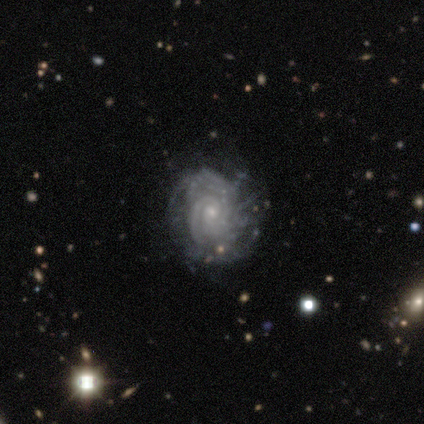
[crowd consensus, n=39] smooth_or_featured: featured or disk (p=0.97) [alt: smooth p=0.03]
disk_edge_on: no (p=1.00)
bar: no (p=0.63) [alt: weak p=0.37]
has_spiral_arms: yes (p=0.95) [alt: no p=0.05]
spiral_winding: tight (p=0.81) [alt: medium p=0.19]
spiral_arm_count: can't tell (p=0.50) [alt: 2 p=0.22]
bulge_size: small (p=0.82) [alt: moderate p=0.13]
merging: none (p=0.72) [alt: minor disturbance p=0.21]